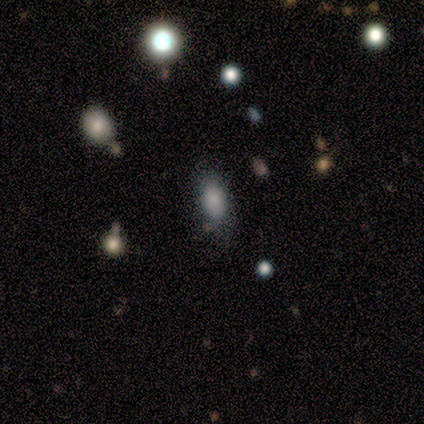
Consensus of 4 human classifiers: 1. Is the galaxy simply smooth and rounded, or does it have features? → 100% smooth, 0% featured or disk, 0% star or artifact.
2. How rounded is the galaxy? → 100% in between, 0% round, 0% cigar-shaped.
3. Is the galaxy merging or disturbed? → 75% none, 25% minor disturbance, 0% major disturbance, 0% merger.